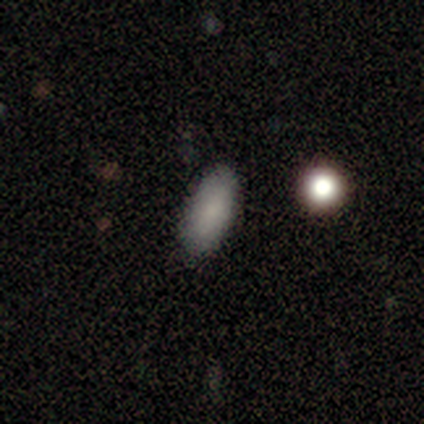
smooth 86%, star or artifact 14%, featured or disk 0%. Down the decision tree: how rounded — in between (100%); merging — none (100%).